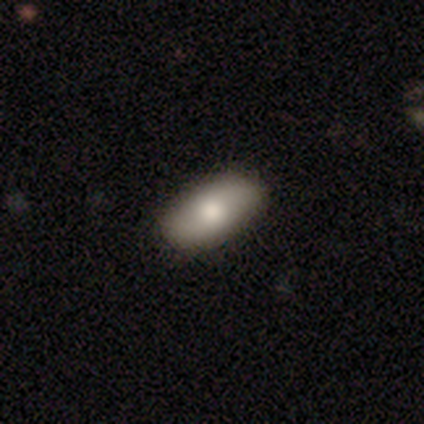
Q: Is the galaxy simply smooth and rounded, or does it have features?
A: smooth — 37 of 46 (80%).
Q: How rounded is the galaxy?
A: in between — 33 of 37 (89%).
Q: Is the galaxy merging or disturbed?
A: none — 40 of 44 (91%).